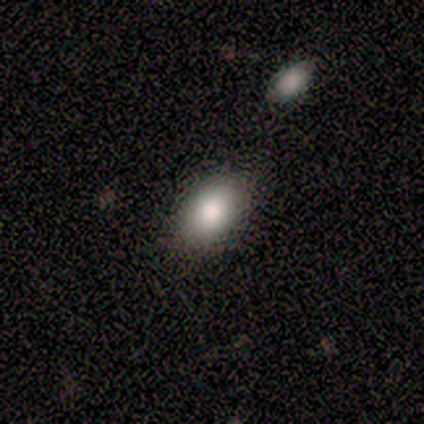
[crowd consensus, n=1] A smooth galaxy with no disk features (100%) that is in between round and cigar-shaped (100%). Merging: none (100%).